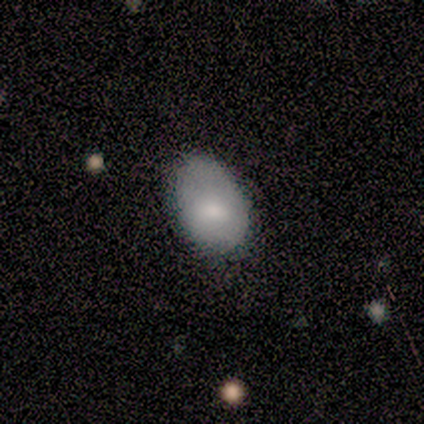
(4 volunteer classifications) This is clearly a smooth galaxy (100%). How rounded: possibly round (50%, tied with in between). Merging: possibly none (50%).